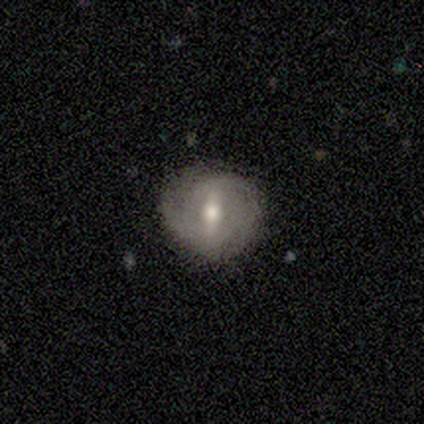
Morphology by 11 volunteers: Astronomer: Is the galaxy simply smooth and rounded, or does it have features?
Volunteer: smooth — 64%.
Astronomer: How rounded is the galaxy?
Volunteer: round — 100%.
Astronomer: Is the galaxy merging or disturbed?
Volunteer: none — 73%.